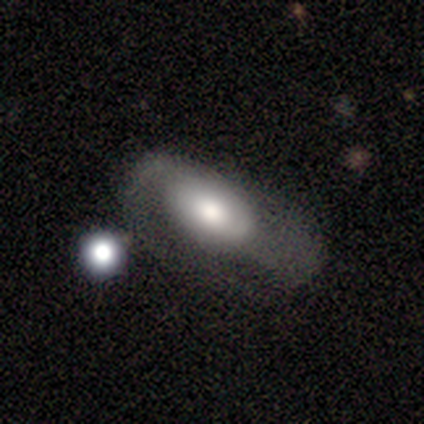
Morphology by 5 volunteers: Smooth or featured?
  - smooth: 60% *
  - featured or disk: 40%
  - star or artifact: 0%
How rounded?
  - in between: 100% *
  - round: 0%
  - cigar-shaped: 0%
Merging?
  - none: 40% * (tied)
  - major disturbance: 40% * (tied)
  - minor disturbance: 20%
  - merger: 0%